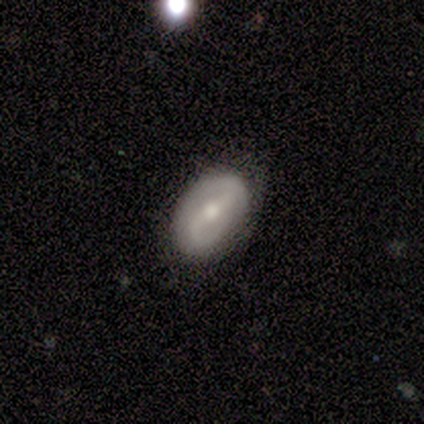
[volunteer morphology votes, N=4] This appears to be a featured or disk galaxy (75%) with a weak bar (67%), 2 (50%, tied with can't tell) tight (50%, tied with medium) spiral arms (67%) and a moderate central bulge (67%). Merging: none (50%, tied with minor disturbance).